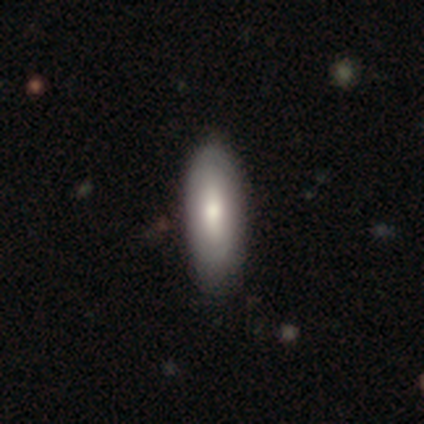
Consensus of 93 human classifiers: smooth-or-featured: smooth: 68% | featured or disk: 28% | star or artifact: 4%
  how-rounded: in between: 65% | cigar-shaped: 33% | round: 2%
  merging: none: 82% | minor disturbance: 16% | major disturbance: 1% | merger: 1%